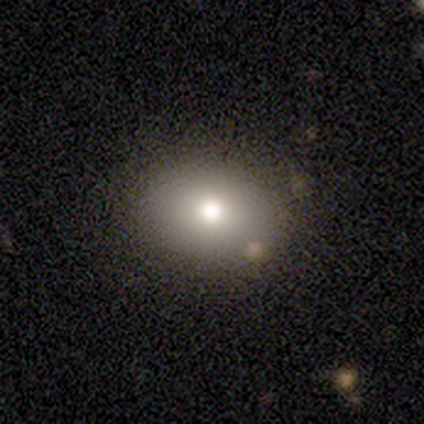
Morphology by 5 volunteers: Volunteers were most divided on "how rounded": in between: 60%, round: 40%, cigar-shaped: 0%. More confident: smooth or featured — smooth (100%); merging — none (100%).